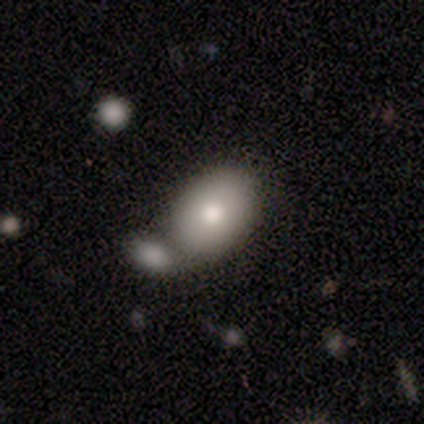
Q: Smooth or featured?
A: smooth (71%); runner-up: featured or disk (18%)
Q: How rounded?
A: in between (75%); runner-up: round (21%)
Q: Merging?
A: merger (60%)